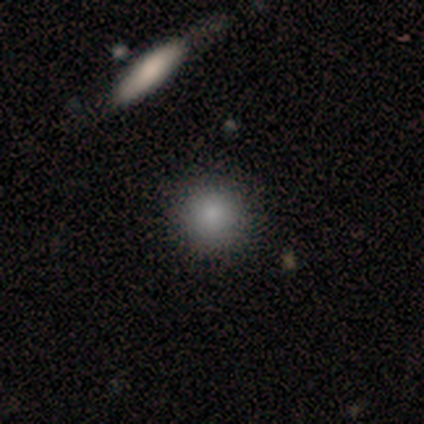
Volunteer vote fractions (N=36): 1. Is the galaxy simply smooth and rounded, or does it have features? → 78% smooth, 14% star or artifact, 8% featured or disk.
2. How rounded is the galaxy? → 93% round, 4% in between, 4% cigar-shaped.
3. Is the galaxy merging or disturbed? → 81% none, 16% minor disturbance, 3% major disturbance, 0% merger.